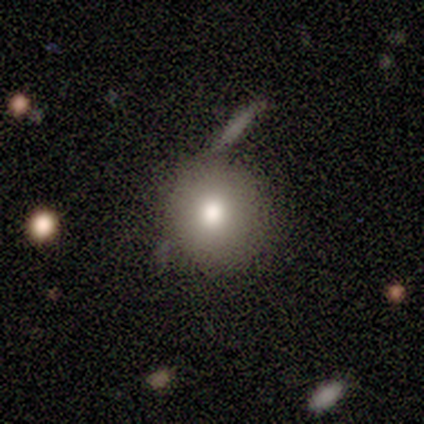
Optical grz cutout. It shows a smooth galaxy with no disk features (100%) that is round (80%). Merging: none (80%).